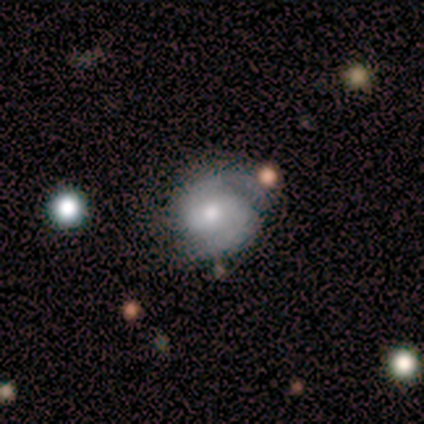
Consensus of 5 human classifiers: Morphology: type=featured or disk (80%); edge-on=no (100%); bar=weak (75%); spiral arms=yes (100%); winding=medium (100%); arm count=2 (100%); bulge=moderate (50%, tied with small); merging=none (80%).